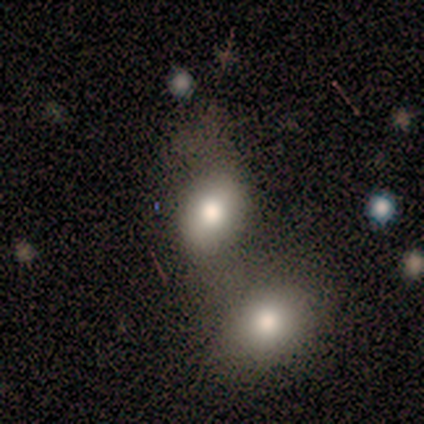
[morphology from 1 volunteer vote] This is clearly a star or artifact rather than a galaxy (100%).